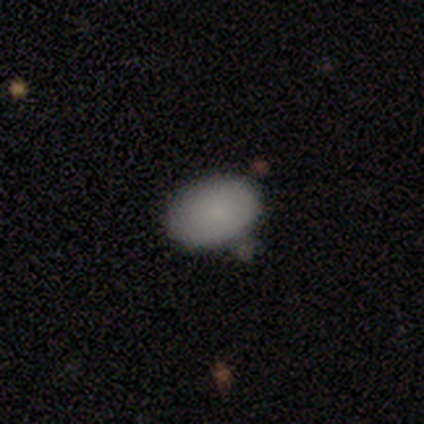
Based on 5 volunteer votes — Smooth or featured?
  - smooth: 80% *
  - star or artifact: 20%
  - featured or disk: 0%
How rounded?
  - in between: 100% *
  - round: 0%
  - cigar-shaped: 0%
Merging?
  - none: 75% *
  - merger: 25%
  - minor disturbance: 0%
  - major disturbance: 0%